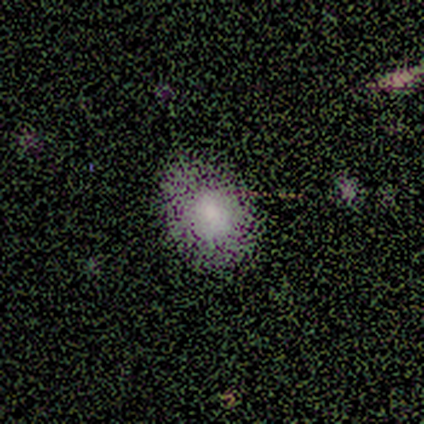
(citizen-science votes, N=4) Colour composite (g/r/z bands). It shows a smooth galaxy with no disk features (100%) that is in between round and cigar-shaped (75%). Merging: none (75%).